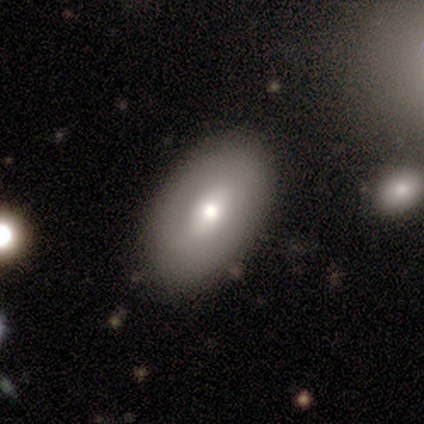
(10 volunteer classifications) Morphology: type=smooth (80%); roundness=in between (88%); merging=none (89%).